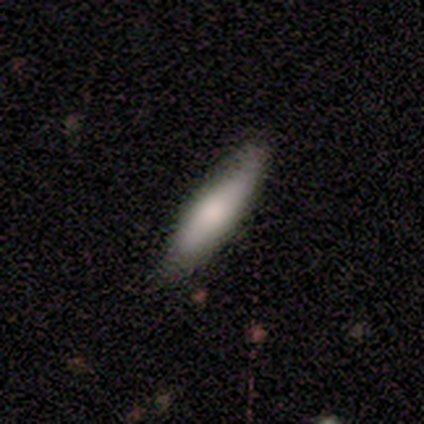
Q: Smooth or featured?
A: smooth (100%)
Q: How rounded?
A: cigar-shaped (80%); runner-up: in between (20%)
Q: Merging?
A: none (60%); runner-up: minor disturbance (20%)